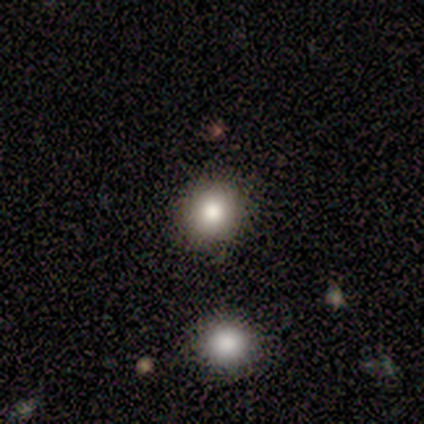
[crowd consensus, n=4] Overall: smooth (50%; featured or disk 25%). How rounded: round (100%). Merging: none (100%).